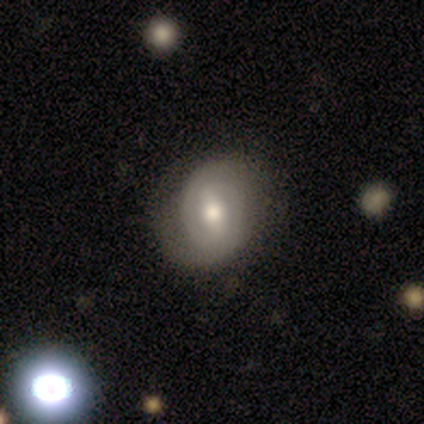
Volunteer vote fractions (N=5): A featured or disk galaxy (80%) with a strong bar (50%), 2 (67%) tight (100%) spiral arms (75%) and a moderate central bulge (50%). Merging: none (100%).